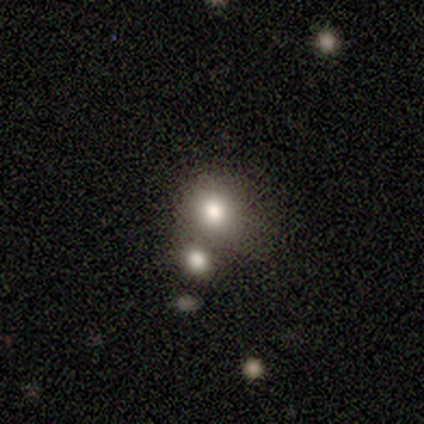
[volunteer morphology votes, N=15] Smooth or featured? 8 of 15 (53%) said smooth. How rounded? 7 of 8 (88%) said round. Merging? 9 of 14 (64%) said none.